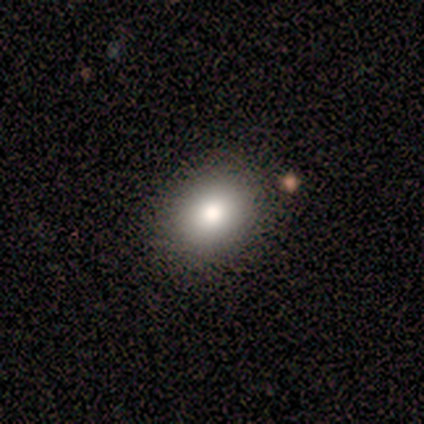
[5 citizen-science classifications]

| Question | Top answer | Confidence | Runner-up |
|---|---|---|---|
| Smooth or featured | smooth | 100% | — |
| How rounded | in between | 80% | round (20%) |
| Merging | none | 100% | — |